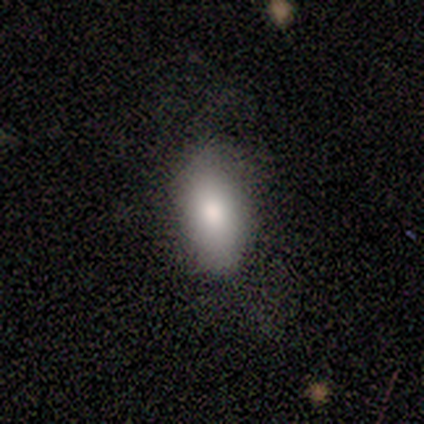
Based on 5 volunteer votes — Morphology: type=smooth (100%); roundness=in between (100%); merging=none (80%).